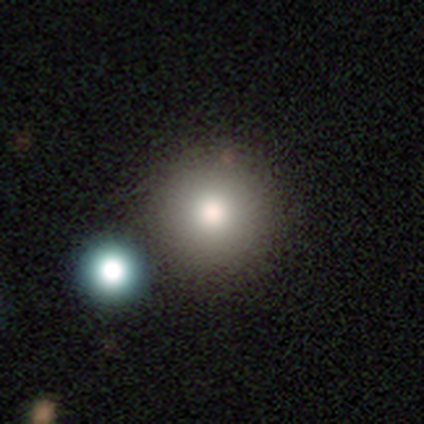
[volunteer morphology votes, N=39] Smooth or featured? 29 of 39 (74%) said smooth. How rounded? 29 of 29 (100%) said round. Merging? 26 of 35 (74%) said none.